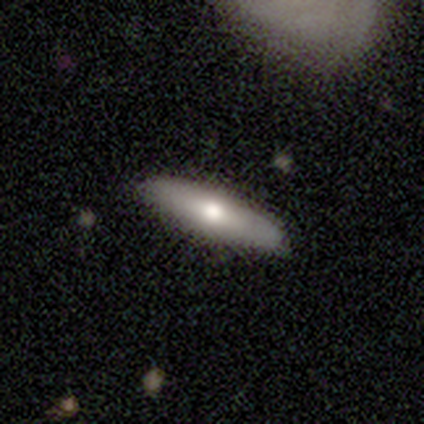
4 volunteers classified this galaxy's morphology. This is likely a featured or disk galaxy (75%). It is likely viewed edge-on (67%). Edge-on bulge: clearly rounded (100%). Merging: likely none (75%).